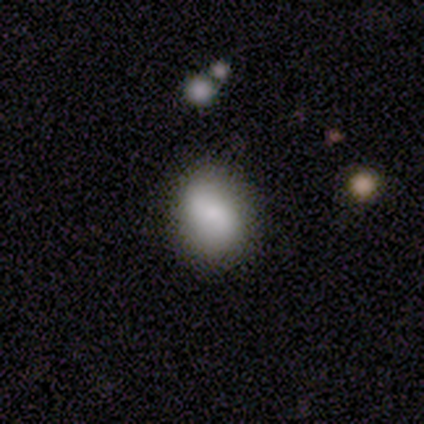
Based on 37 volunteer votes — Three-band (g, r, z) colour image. It shows a smooth galaxy with no disk features (78%) that is round (59%). Merging: none (78%).